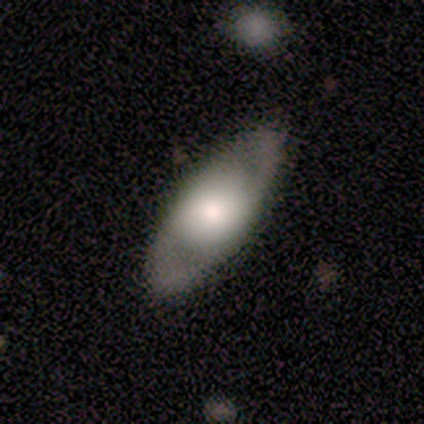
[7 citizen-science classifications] smooth 57%, featured or disk 29%, star or artifact 14%. Down the decision tree: how rounded — in between (75%); merging — none (100%).